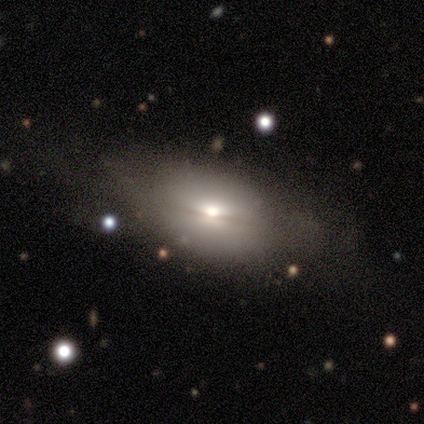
Overall: smooth (62%; featured or disk 34%). How rounded: in between (90%). Merging: none (52%; minor disturbance 21%).